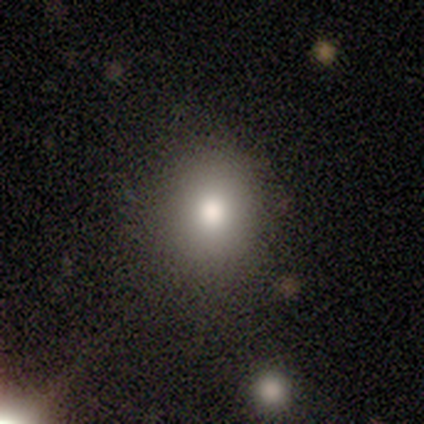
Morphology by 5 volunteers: A smooth galaxy with no disk features (100%) that is round (60%). Merging: none (80%).